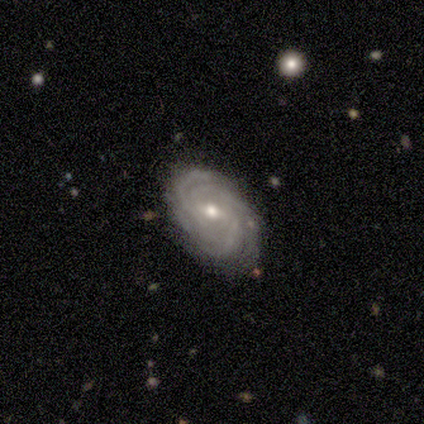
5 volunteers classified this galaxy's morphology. This appears to be a featured or disk galaxy (100%) with a weak bar (80%), 3 (40%) tight (100%) spiral arms (100%) and a small central bulge (60%). Merging: none (60%).